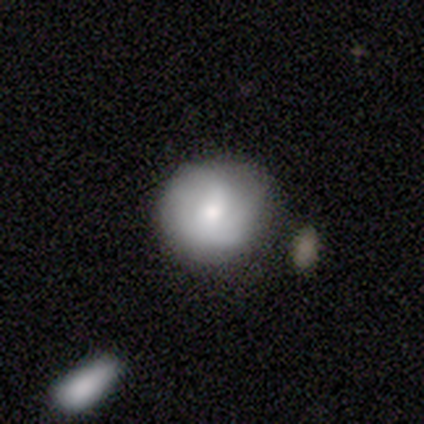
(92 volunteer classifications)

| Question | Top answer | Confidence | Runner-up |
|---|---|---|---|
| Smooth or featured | smooth | 63% | featured or disk (28%) |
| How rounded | round | 91% | in between (9%) |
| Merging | none | 69% | minor disturbance (25%) |